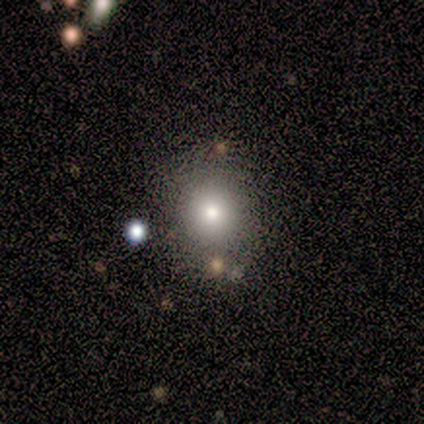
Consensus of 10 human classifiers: Volunteers were most divided on "smooth or featured": smooth: 60%, star or artifact: 40%, featured or disk: 0%. More confident: how rounded — round (83%); merging — none (83%).